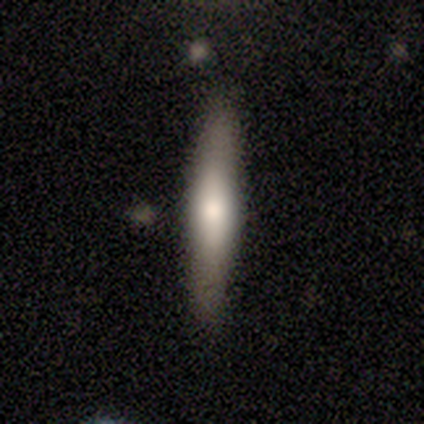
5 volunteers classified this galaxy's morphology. Smooth or featured? 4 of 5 (80%) said smooth. How rounded? 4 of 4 (100%) said cigar-shaped. Merging? 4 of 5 (80%) said none.